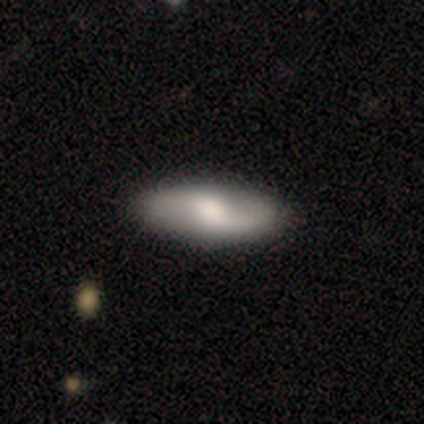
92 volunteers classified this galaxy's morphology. smooth-or-featured: featured or disk: 59% | smooth: 39% | star or artifact: 2%
  disk-edge-on: no: 80% | yes: 20%
    bar: weak: 53% | no: 35% | strong: 12%
    has-spiral-arms: yes: 91% | no: 9%
      spiral-winding: loose: 82% | medium: 15% | tight: 3%
      spiral-arm-count: 2: 92% | 1: 8% | 3: 0% | 4: 0% | more than 4: 0% | can't tell: 0%
    bulge-size: moderate: 53% | small: 23% | large: 16% | none: 5% | dominant: 2%
  merging: none: 86% | minor disturbance: 8% | major disturbance: 7% | merger: 0%